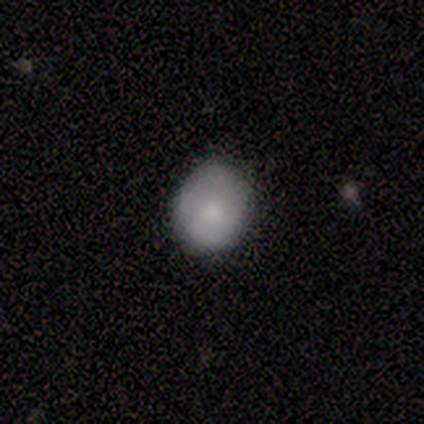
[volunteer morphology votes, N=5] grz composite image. It shows a smooth galaxy with no disk features (60%) that is round (67%). Merging: none (75%).